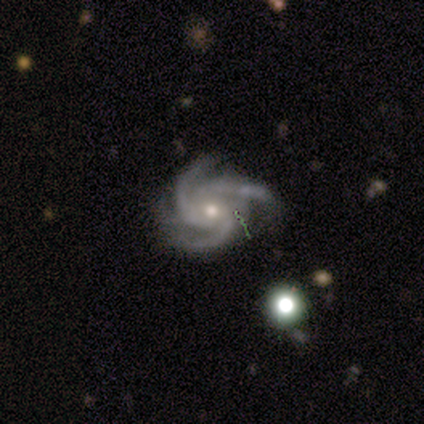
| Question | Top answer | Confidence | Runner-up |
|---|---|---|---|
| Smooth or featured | featured or disk | 100% | — |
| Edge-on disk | no | 100% | — |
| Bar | no | 100% | — |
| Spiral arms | yes | 100% | — |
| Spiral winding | tight | 75% | loose (25%) |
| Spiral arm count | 3 | 50% | 2 (25%) |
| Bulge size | moderate | 75% | small (25%) |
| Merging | none | 50% | tied: minor disturbance (50%) |